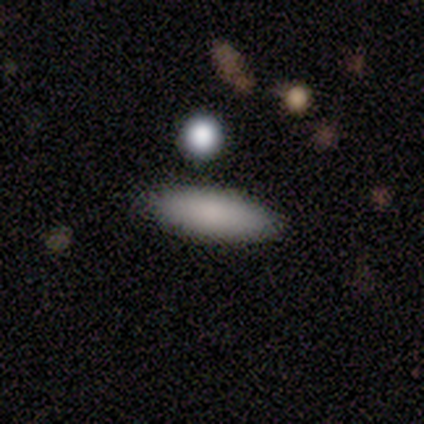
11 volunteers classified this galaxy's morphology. A smooth galaxy with no disk features (82%) that is cigar-shaped (56%). Merging: none (100%).